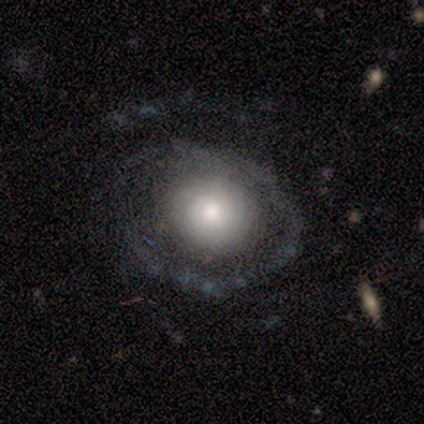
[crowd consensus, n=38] Smooth or featured?
  - featured or disk: 50% *
  - smooth: 42%
  - star or artifact: 8%
Edge-on disk?
  - no: 100% *
  - yes: 0%
Bar?
  - no: 84% *
  - weak: 16%
  - strong: 0%
Spiral arms?
  - no: 53% *
  - yes: 47%
Bulge size?
  - moderate: 63% *
  - large: 21%
  - small: 16%
  - dominant: 0%
  - none: 0%
Merging?
  - none: 66% *
  - major disturbance: 23%
  - minor disturbance: 11%
  - merger: 0%